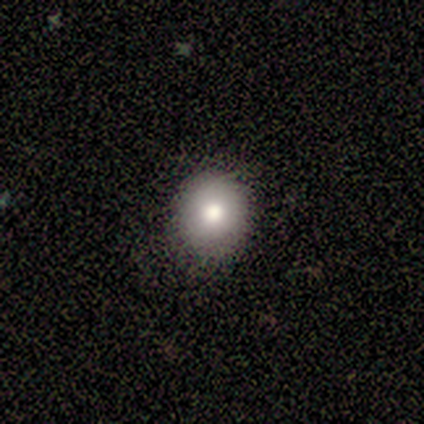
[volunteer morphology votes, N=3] This appears to be a smooth galaxy with no disk features (67%) that is round (100%). Merging: none (100%).